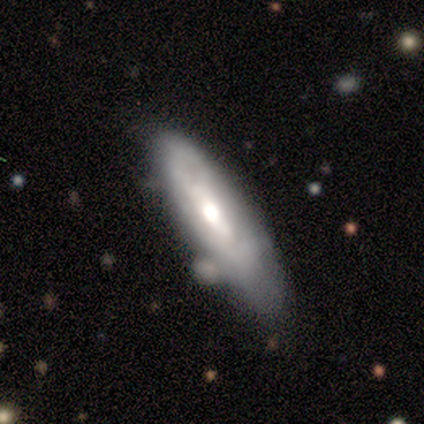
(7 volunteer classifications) A featured or disk galaxy (100%) with no bar (80%), no spiral arms (80%) and a moderate central bulge (60%).

Vote fractions:
- Smooth or featured? featured or disk: 100% / smooth: 0% / star or artifact: 0%
- Edge-on disk? no: 71% / yes: 29%
- Bar? no: 80% / weak: 20% / strong: 0%
- Spiral arms? no: 80% / yes: 20%
- Bulge size? moderate: 60% / large: 40% / dominant: 0% / small: 0% / none: 0%
- Merging? none: 43% (tied) / minor disturbance: 43% (tied) / merger: 14% / major disturbance: 0%